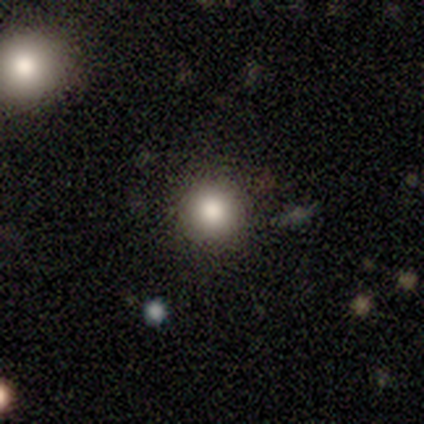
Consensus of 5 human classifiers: Smooth or featured? smooth (80%)
How rounded? round (100%)
Merging? none (100%)